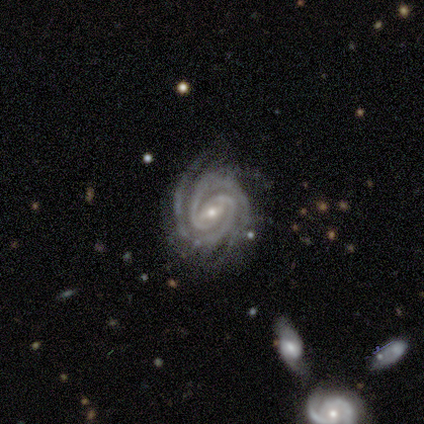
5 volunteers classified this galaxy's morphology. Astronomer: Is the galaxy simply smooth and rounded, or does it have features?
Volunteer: featured or disk — 100%.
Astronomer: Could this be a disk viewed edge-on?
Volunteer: no — 100%.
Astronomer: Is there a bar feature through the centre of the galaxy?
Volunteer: weak — 60% (runner-up: no, 40%).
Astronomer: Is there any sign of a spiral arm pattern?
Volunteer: yes — 100%.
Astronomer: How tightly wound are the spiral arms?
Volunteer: medium — 60% (runner-up: tight, 40%).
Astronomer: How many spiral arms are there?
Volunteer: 3 — 60%.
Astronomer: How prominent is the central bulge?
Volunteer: small — 60% (runner-up: moderate, 40%).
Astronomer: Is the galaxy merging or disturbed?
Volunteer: none — 80%.